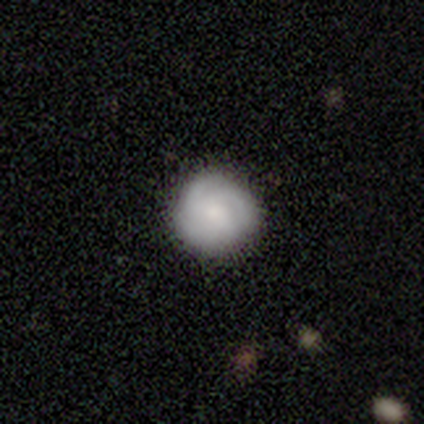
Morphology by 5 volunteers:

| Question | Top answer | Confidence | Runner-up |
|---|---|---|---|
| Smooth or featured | smooth | 60% | featured or disk (40%) |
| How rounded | round | 100% | — |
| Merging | none | 80% | minor disturbance (20%) |